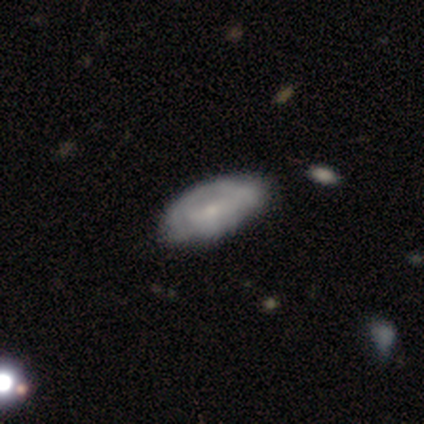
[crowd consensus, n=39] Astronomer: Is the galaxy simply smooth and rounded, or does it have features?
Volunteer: featured or disk — 51% (runner-up: smooth, 46%).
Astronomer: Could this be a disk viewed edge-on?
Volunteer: no — 95%.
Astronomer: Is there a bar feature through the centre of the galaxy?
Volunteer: no — 53% (runner-up: weak, 37%).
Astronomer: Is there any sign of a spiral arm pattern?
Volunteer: no — 53% (runner-up: yes, 47%).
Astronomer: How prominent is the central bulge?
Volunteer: small — 84%.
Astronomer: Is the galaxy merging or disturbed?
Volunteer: none — 34% (runner-up: minor disturbance, 26%).